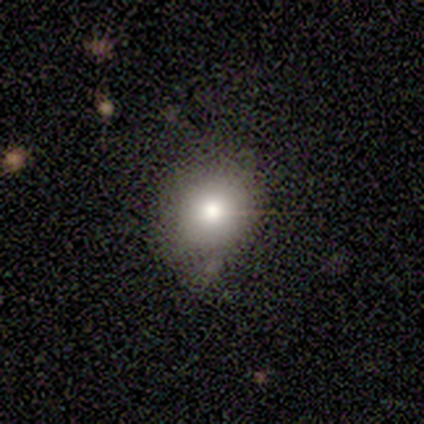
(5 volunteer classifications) A smooth galaxy with no disk features (80%) that is round (75%). Merging: none (80%).